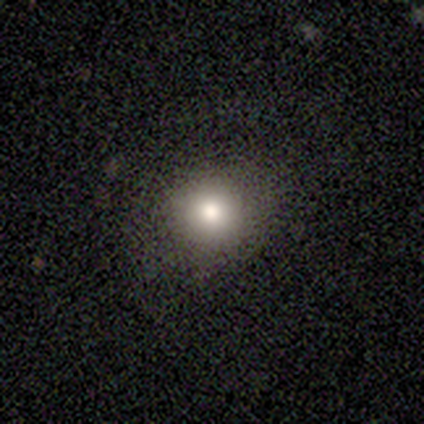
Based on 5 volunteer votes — Volunteers were most divided on "how rounded": round: 75%, in between: 25%, cigar-shaped: 0%. More confident: merging — none (100%); smooth or featured — smooth (80%).